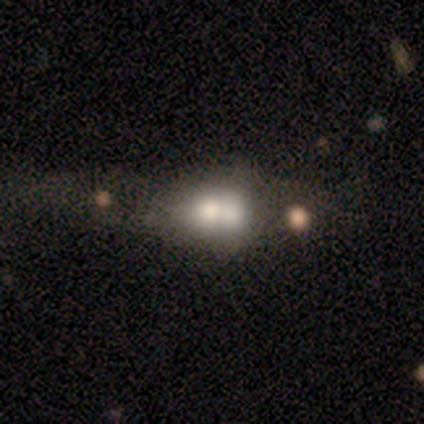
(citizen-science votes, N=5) Smooth or featured? 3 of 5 (60%) said featured or disk. Edge-on disk? 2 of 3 (67%) said no. Bar? 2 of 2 (100%) said no. Spiral arms? 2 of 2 (100%) said no. Bulge size? 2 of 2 (100%) said large. Merging? 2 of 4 (50%) said merger.